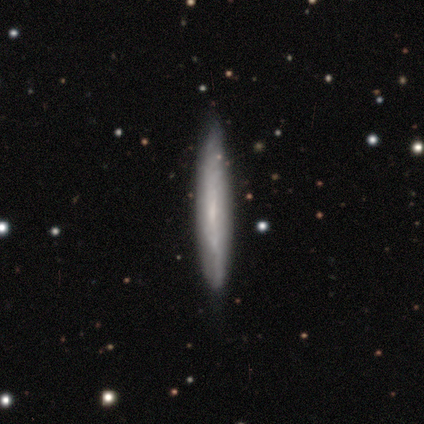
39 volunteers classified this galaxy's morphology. type=featured or disk (64%); edge-on=yes (60%); edge-on bulge=none (73%); merging=none (58%).